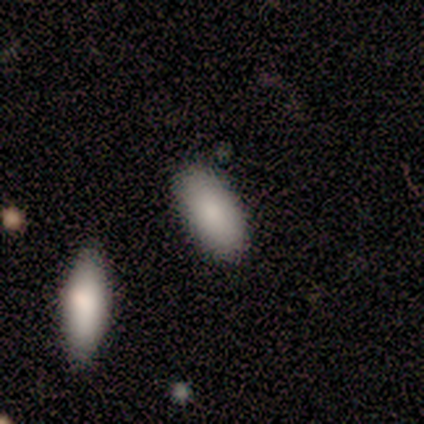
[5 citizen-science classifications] Smooth or featured? smooth (100%)
How rounded? in between (80%)
Merging? none (100%)